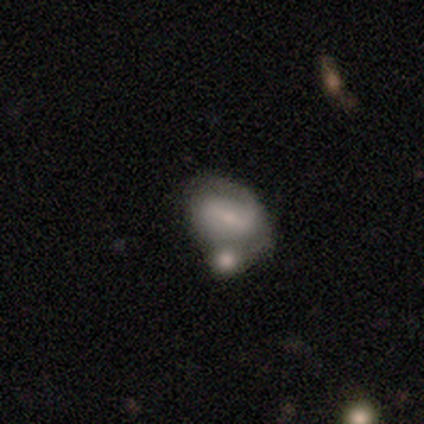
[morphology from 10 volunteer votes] This appears to be a smooth galaxy with no disk features (60%) that is in between round and cigar-shaped (100%). Merging: merger (60%).